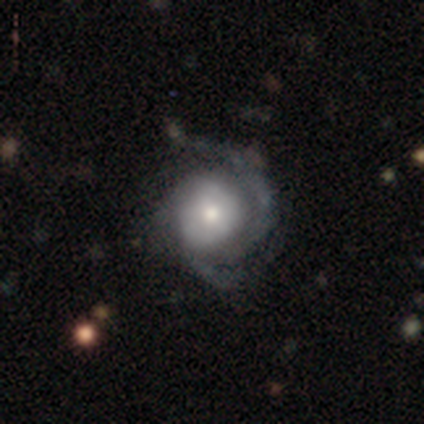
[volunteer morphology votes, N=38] Smooth or featured: featured or disk — 87% (smooth — 11%)
Edge-on disk: no — 97% (yes — 3%)
Bar: no — 84% (weak — 12%)
Spiral arms: yes — 94% (no — 6%)
Spiral winding: tight — 53% (medium — 37%)
Spiral arm count: 2 — 53% (can't tell — 30%)
Bulge size: moderate — 66% (small — 22%)
Merging: none — 59% (minor disturbance — 24%)